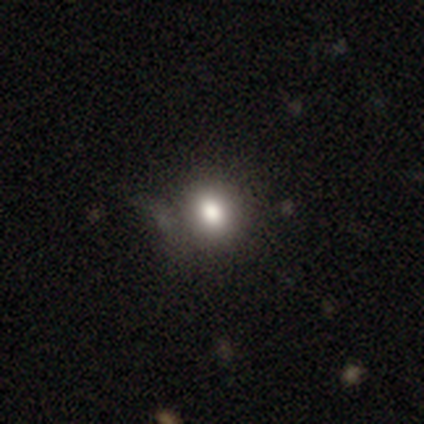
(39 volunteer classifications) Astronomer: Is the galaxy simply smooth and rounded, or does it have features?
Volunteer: smooth — 82%.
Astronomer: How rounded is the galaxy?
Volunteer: round — 81%.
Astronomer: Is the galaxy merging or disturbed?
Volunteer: none — 74%.